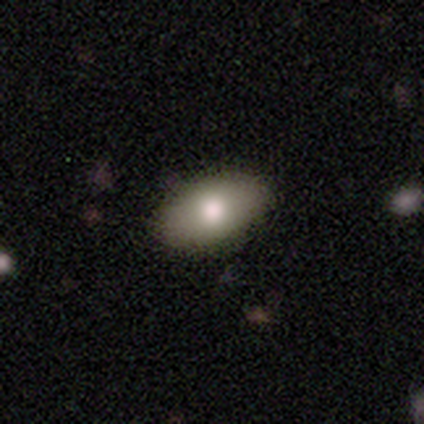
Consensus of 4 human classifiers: Smooth or featured? 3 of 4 (75%) said smooth. How rounded? 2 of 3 (67%) said in between. Merging? 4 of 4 (100%) said none.